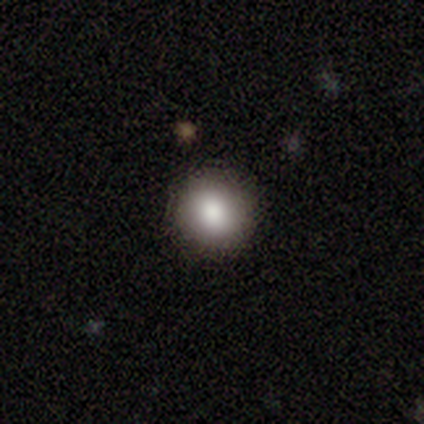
Smooth or featured: smooth — 100%
How rounded: round — 100%
Merging: none — 100%